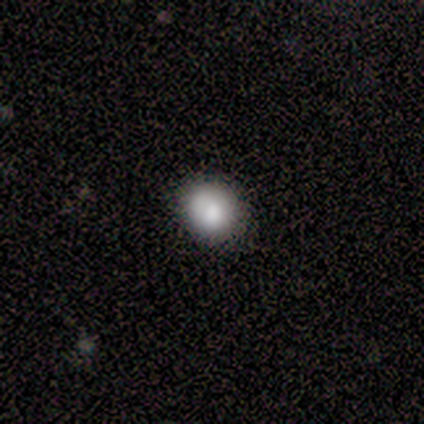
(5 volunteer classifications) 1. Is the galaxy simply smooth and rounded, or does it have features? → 60% smooth, 40% featured or disk, 0% star or artifact.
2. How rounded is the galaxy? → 100% round, 0% in between, 0% cigar-shaped.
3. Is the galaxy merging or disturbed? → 80% none, 20% minor disturbance, 0% major disturbance, 0% merger.